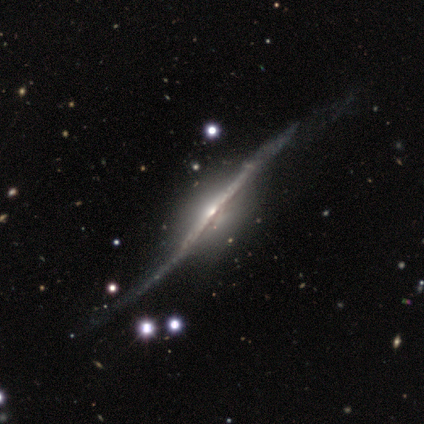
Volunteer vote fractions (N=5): A featured or disk galaxy (80%) viewed edge-on (100%) with a rounded central bulge (75%).

Vote fractions:
- Smooth or featured? featured or disk: 80% / star or artifact: 20% / smooth: 0%
- Edge-on disk? yes: 100% / no: 0%
- Edge-on bulge? rounded: 75% / boxy: 25% / none: 0%
- Merging? none: 100% / minor disturbance: 0% / major disturbance: 0% / merger: 0%